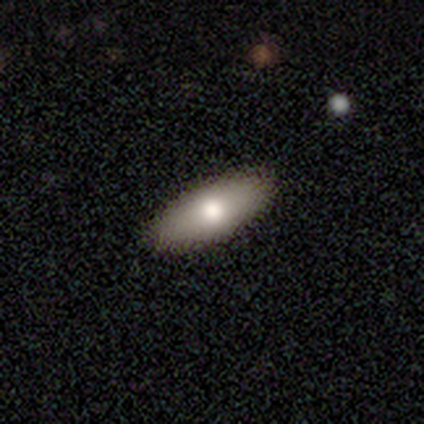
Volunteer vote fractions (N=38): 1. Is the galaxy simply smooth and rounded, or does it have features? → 82% smooth, 13% featured or disk, 5% star or artifact.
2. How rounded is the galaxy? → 71% in between, 29% cigar-shaped, 0% round.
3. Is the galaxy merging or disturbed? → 94% none, 3% minor disturbance, 3% major disturbance, 0% merger.